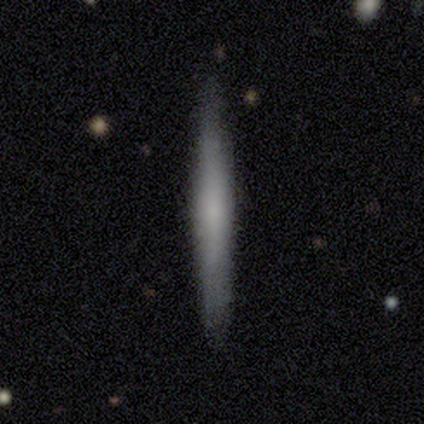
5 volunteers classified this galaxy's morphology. A smooth galaxy with no disk features (100%) that is cigar-shaped (80%).

Vote fractions:
- Smooth or featured? smooth: 100% / featured or disk: 0% / star or artifact: 0%
- How rounded? cigar-shaped: 80% / in between: 20% / round: 0%
- Merging? none: 100% / minor disturbance: 0% / major disturbance: 0% / merger: 0%